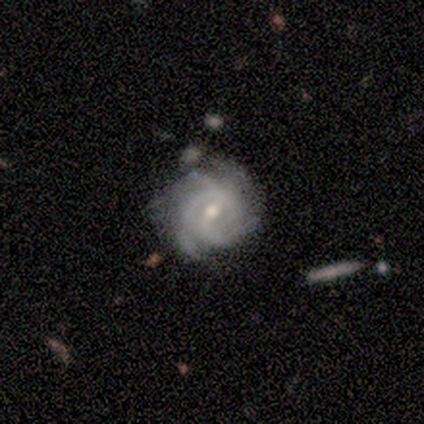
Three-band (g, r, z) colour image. It shows a featured or disk galaxy (86%) with a weak bar (62%), 3 (54%) tight (64%) spiral arms (97%) and a moderate central bulge (62%). Merging: none (79%).